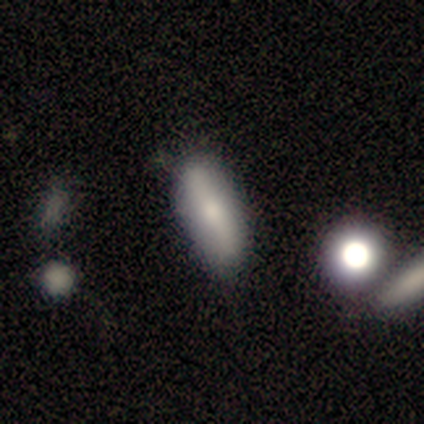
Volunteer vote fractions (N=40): Smooth or featured? 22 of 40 (55%) said smooth. How rounded? 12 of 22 (55%) said cigar-shaped. Merging? 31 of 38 (82%) said none.